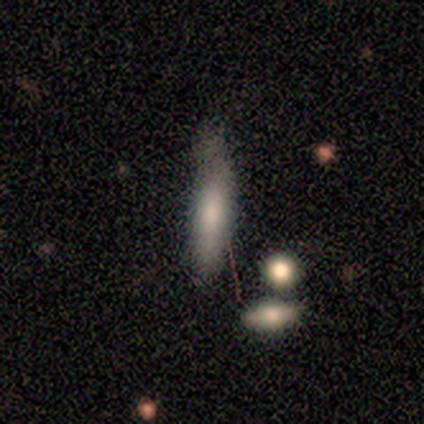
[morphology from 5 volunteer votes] smooth_or_featured: featured or disk (p=0.60) [alt: smooth p=0.40]
disk_edge_on: yes (p=1.00)
edge_on_bulge: rounded (p=0.67) [alt: boxy p=0.33]
merging: minor disturbance (p=0.60) [alt: none p=0.40]